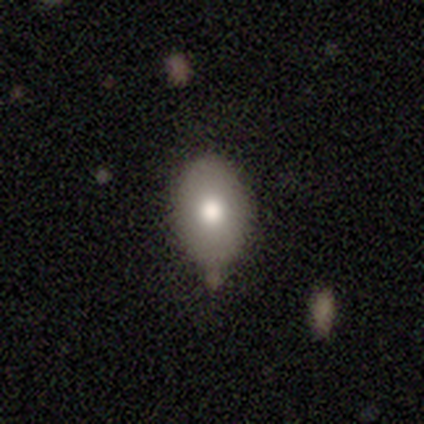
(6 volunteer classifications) A smooth galaxy with no disk features (83%) that is in between round and cigar-shaped (100%).

Vote fractions:
- Smooth or featured? smooth: 83% / star or artifact: 17% / featured or disk: 0%
- How rounded? in between: 100% / round: 0% / cigar-shaped: 0%
- Merging? none: 60% / minor disturbance: 20% / merger: 20% / major disturbance: 0%